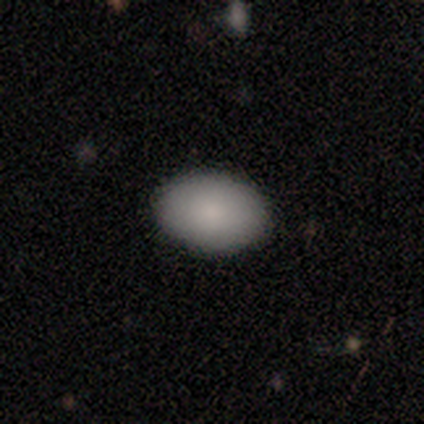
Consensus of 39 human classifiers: A smooth galaxy with no disk features (79%) that is in between round and cigar-shaped (84%).

Vote fractions:
- Smooth or featured? smooth: 79% / featured or disk: 15% / star or artifact: 5%
- How rounded? in between: 84% / round: 16% / cigar-shaped: 0%
- Merging? none: 89% / minor disturbance: 8% / merger: 3% / major disturbance: 0%